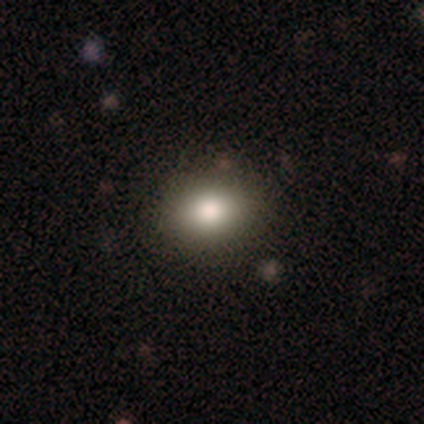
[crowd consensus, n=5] Smooth or featured?
  - smooth: 60% *
  - featured or disk: 40%
  - star or artifact: 0%
How rounded?
  - round: 67% *
  - in between: 33%
  - cigar-shaped: 0%
Merging?
  - none: 100% *
  - minor disturbance: 0%
  - major disturbance: 0%
  - merger: 0%